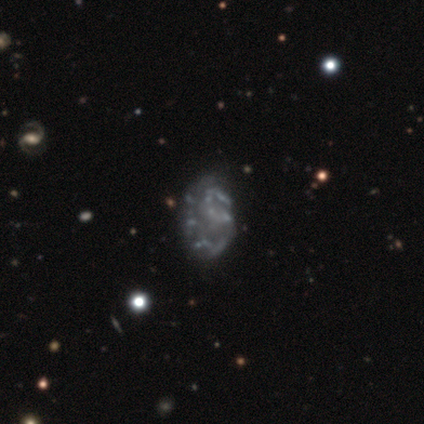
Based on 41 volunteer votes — A featured or disk galaxy (78%) with no bar (75%), no spiral arms (53%) and no central bulge (81%). Merging: none (47%).